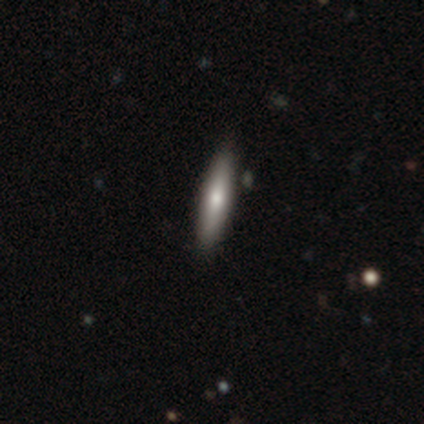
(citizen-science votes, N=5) Q: Smooth or featured?
A: smooth (80%); runner-up: featured or disk (20%)
Q: How rounded?
A: cigar-shaped (75%); runner-up: in between (25%)
Q: Merging?
A: none (100%)